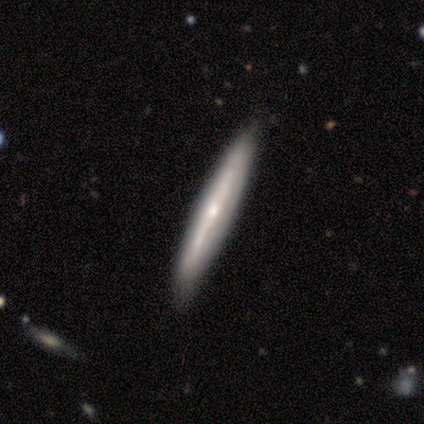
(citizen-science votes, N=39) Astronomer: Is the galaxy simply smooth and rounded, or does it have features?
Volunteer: featured or disk — 72%.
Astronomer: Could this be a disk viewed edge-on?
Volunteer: yes — 86%.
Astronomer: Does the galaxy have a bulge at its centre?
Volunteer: rounded — 71%.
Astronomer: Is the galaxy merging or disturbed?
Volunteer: none — 82%.